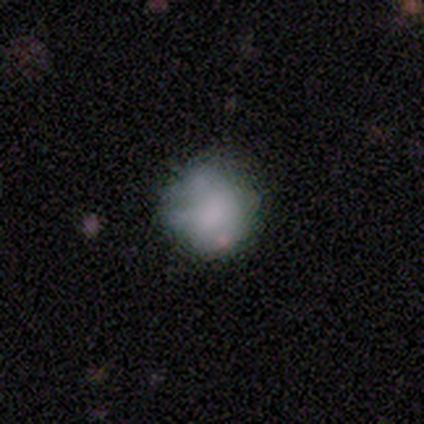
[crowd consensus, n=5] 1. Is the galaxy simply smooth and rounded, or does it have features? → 60% smooth, 20% featured or disk, 20% star or artifact.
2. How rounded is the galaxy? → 100% round, 0% in between, 0% cigar-shaped.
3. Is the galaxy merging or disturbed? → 75% none, 25% minor disturbance, 0% major disturbance, 0% merger.